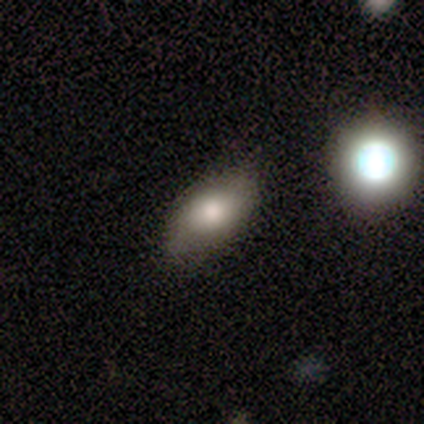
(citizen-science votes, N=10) smooth 70%, featured or disk 20%, star or artifact 10%. Down the decision tree: how rounded — in between (100%); merging — none (89%).